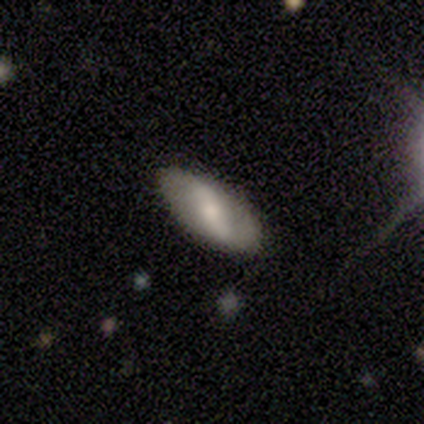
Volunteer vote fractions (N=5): featured or disk 80%, smooth 20%, star or artifact 0%. Down the decision tree: edge-on disk — no (100%); bar — strong (75%); spiral arms — yes (100%); spiral arm count — 2 (100%); spiral winding — loose (75%); bulge size — large (50%, tied with moderate); merging — none (100%).